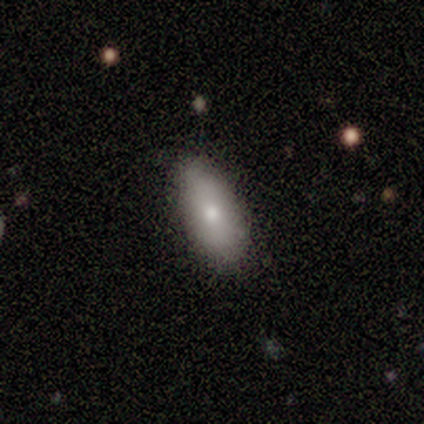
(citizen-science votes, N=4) This appears to be a smooth galaxy with no disk features (100%) that is in between round and cigar-shaped (75%). Merging: none (75%).